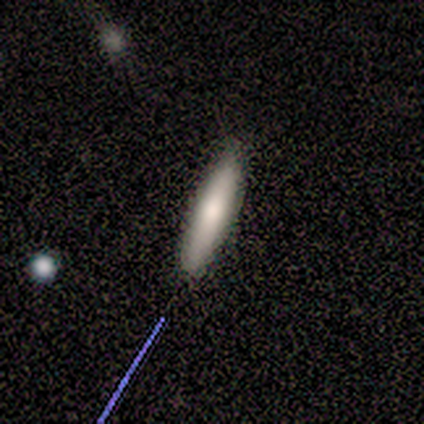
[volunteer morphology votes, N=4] A smooth galaxy with no disk features (50%) that is cigar-shaped (100%). Merging: none (67%).